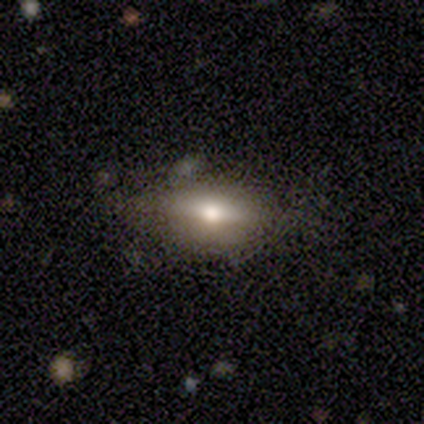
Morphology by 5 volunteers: Smooth or featured? smooth (60%)
How rounded? in between (67%)
Merging? none (80%)